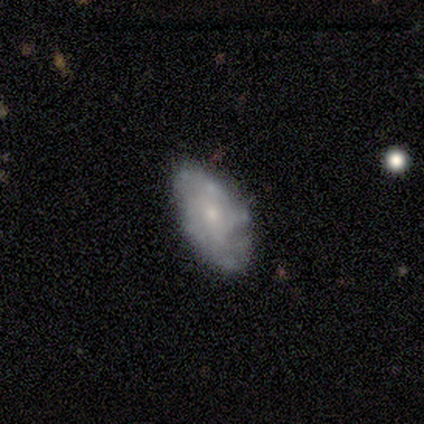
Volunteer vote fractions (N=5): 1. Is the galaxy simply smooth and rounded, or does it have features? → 60% featured or disk, 40% smooth, 0% star or artifact.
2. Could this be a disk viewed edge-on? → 100% no, 0% yes.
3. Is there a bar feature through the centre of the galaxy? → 100% no, 0% strong, 0% weak.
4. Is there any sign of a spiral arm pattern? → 67% no, 33% yes.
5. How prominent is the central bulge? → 100% small, 0% dominant, 0% large, 0% moderate, 0% none.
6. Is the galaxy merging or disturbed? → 100% none, 0% minor disturbance, 0% major disturbance, 0% merger.